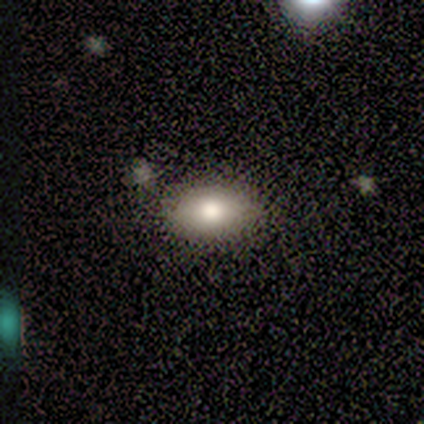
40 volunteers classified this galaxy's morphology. Overall: smooth (82%). How rounded: in between (88%). Merging: none (69%).